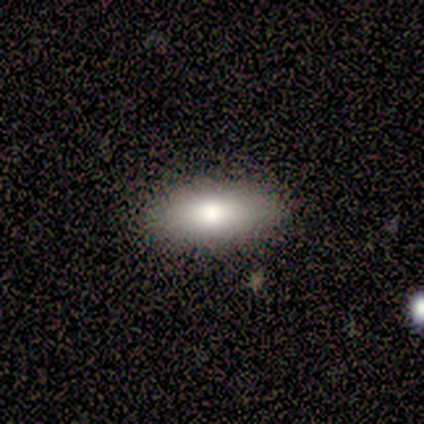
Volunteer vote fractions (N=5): smooth_or_featured: smooth (p=0.80) [alt: star or artifact p=0.20]
how_rounded: in between (p=0.75) [alt: round p=0.25]
merging: none (p=0.75) [alt: major disturbance p=0.25]